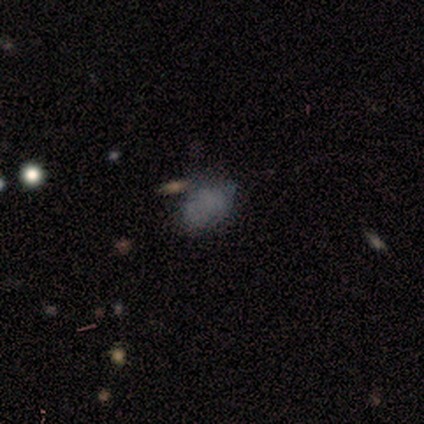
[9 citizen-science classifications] Smooth or featured?
  - smooth: 56% *
  - featured or disk: 33%
  - star or artifact: 11%
How rounded?
  - in between: 100% *
  - round: 0%
  - cigar-shaped: 0%
Merging?
  - none: 75% *
  - minor disturbance: 25%
  - major disturbance: 0%
  - merger: 0%